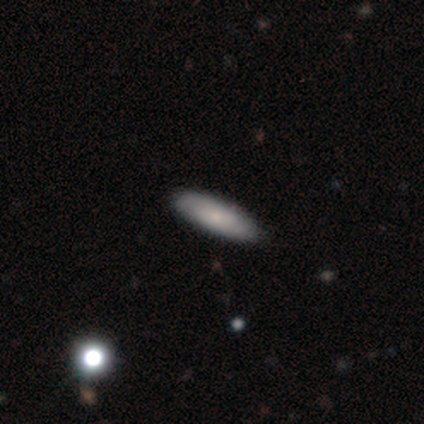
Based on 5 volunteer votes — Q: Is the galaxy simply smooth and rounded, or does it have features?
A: smooth — 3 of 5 (60%).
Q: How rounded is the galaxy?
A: in between — 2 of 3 (67%).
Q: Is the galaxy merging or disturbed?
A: none — 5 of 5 (100%).